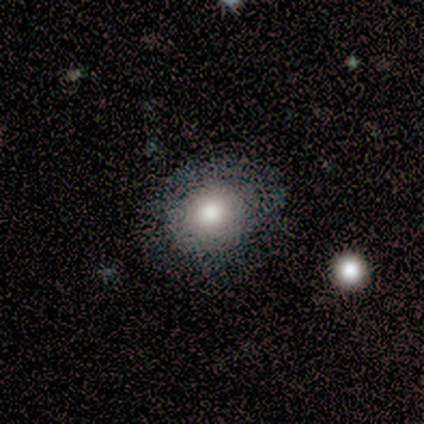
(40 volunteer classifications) A smooth galaxy with no disk features (60%) that is round (71%). Merging: none (47%).